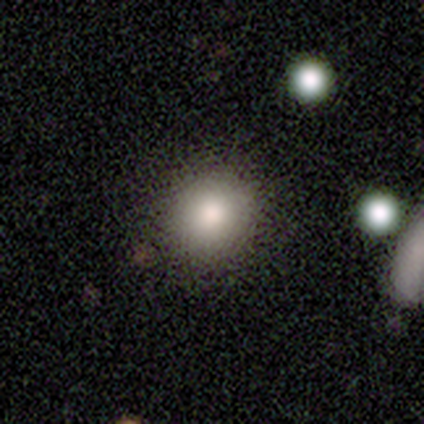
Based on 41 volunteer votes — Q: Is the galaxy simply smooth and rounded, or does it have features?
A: smooth — 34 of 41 (83%).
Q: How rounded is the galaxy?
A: round — 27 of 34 (79%).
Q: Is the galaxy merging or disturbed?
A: none — 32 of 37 (86%).